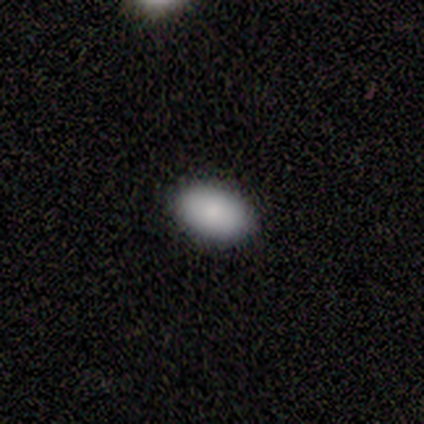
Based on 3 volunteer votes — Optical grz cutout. It shows a smooth galaxy with no disk features (100%) that is in between round and cigar-shaped (100%). Merging: none (100%).